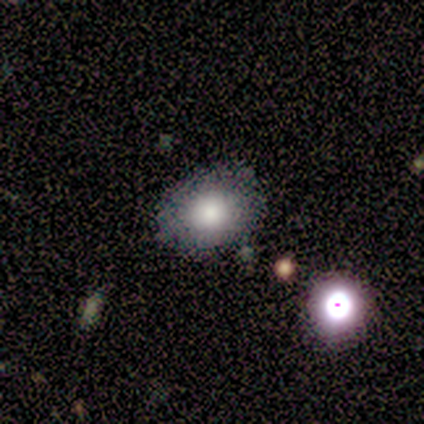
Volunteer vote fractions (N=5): Q: Smooth or featured?
A: smooth (60%); runner-up: featured or disk (20%)
Q: How rounded?
A: in between (100%)
Q: Merging?
A: none (75%); runner-up: minor disturbance (25%)